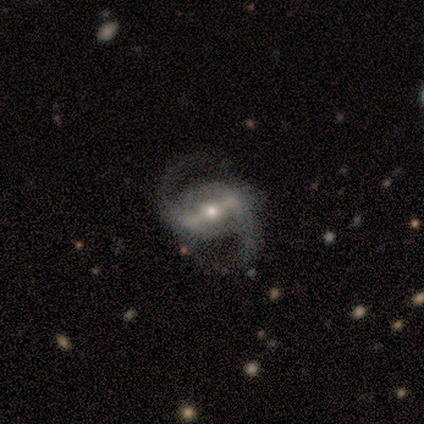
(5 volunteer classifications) A featured or disk galaxy (80%) with a strong bar (50%, tied with weak), 2 (100%) medium (75%) spiral arms (100%) and a small central bulge (75%).

Vote fractions:
- Smooth or featured? featured or disk: 80% / smooth: 20% / star or artifact: 0%
- Edge-on disk? no: 100% / yes: 0%
- Bar? strong: 50% (tied) / weak: 50% (tied) / no: 0%
- Spiral arms? yes: 100% / no: 0%
- Spiral winding? medium: 75% / loose: 25% / tight: 0%
- Spiral arm count? 2: 100% / 1: 0% / 3: 0% / 4: 0% / more than 4: 0% / can't tell: 0%
- Bulge size? small: 75% / moderate: 25% / dominant: 0% / large: 0% / none: 0%
- Merging? none: 80% / minor disturbance: 20% / major disturbance: 0% / merger: 0%